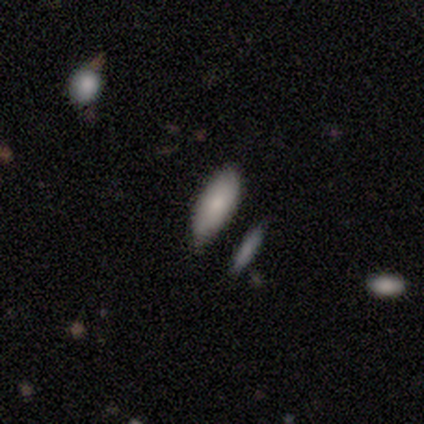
Smooth or featured?
  - smooth: 80% *
  - star or artifact: 20%
  - featured or disk: 0%
How rounded?
  - in between: 100% *
  - round: 0%
  - cigar-shaped: 0%
Merging?
  - none: 75% *
  - minor disturbance: 25%
  - major disturbance: 0%
  - merger: 0%